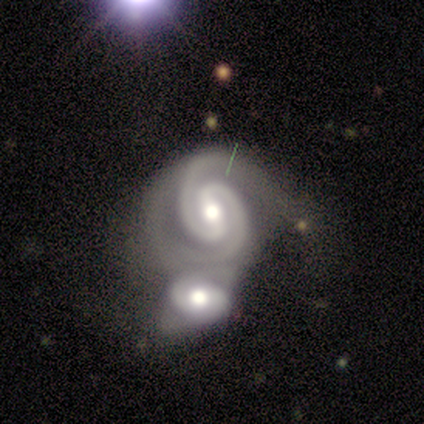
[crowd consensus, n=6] Morphology: type=featured or disk (100%); edge-on=no (100%); bar=weak (67%); spiral arms=yes (100%); winding=tight (83%); arm count=2 (100%); bulge=moderate (83%); merging=merger (100%).